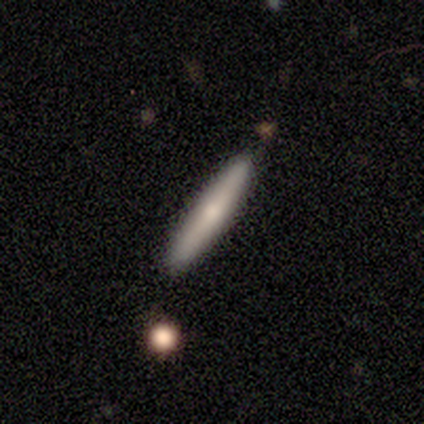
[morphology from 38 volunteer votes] Smooth or featured? smooth (53%)
How rounded? cigar-shaped (95%)
Merging? none (81%)